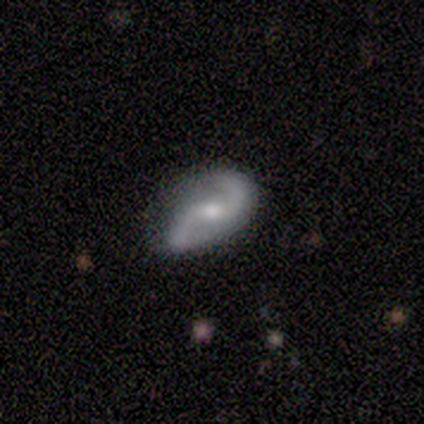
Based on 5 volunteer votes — Smooth or featured?
  - featured or disk: 100% *
  - smooth: 0%
  - star or artifact: 0%
Edge-on disk?
  - no: 100% *
  - yes: 0%
Bar?
  - weak: 60% *
  - no: 40%
  - strong: 0%
Spiral arms?
  - yes: 100% *
  - no: 0%
Spiral winding?
  - loose: 80% *
  - medium: 20%
  - tight: 0%
Spiral arm count?
  - 2: 100% *
  - 1: 0%
  - 3: 0%
  - 4: 0%
  - more than 4: 0%
  - can't tell: 0%
Bulge size?
  - moderate: 100% *
  - dominant: 0%
  - large: 0%
  - small: 0%
  - none: 0%
Merging?
  - none: 100% *
  - minor disturbance: 0%
  - major disturbance: 0%
  - merger: 0%